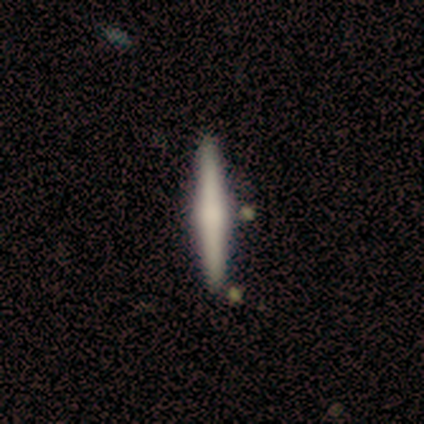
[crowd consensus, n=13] Smooth or featured? smooth (62%)
How rounded? cigar-shaped (100%)
Merging? none (83%)